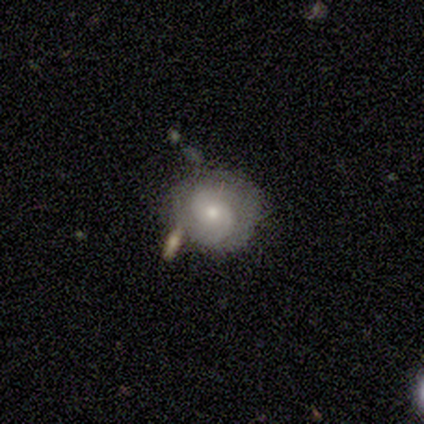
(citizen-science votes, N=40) A featured or disk galaxy (65%) with no bar (88%), 2 (67%) tight (67%) spiral arms (92%) and a moderate central bulge (54%).

Vote fractions:
- Smooth or featured? featured or disk: 65% / smooth: 22% / star or artifact: 12%
- Edge-on disk? no: 100% / yes: 0%
- Bar? no: 88% / weak: 12% / strong: 0%
- Spiral arms? yes: 92% / no: 8%
- Spiral winding? tight: 67% / medium: 29% / loose: 4%
- Spiral arm count? 2: 67% / can't tell: 17% / 1: 8% / 3: 8% / 4: 0% / more than 4: 0%
- Bulge size? moderate: 54% / small: 38% / large: 4% / none: 4% / dominant: 0%
- Merging? none: 60% / minor disturbance: 23% / merger: 14% / major disturbance: 3%